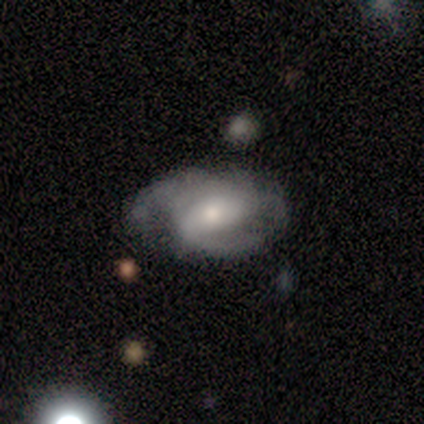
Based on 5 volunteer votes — Volunteers were most divided on "merging" (2-way tie): none: 40%, major disturbance: 40%, minor disturbance: 20%, merger: 0%. More confident: smooth or featured — featured or disk (100%); edge-on disk — no (100%); spiral arms — yes (100%); spiral arm count — 2 (80%); spiral winding — medium (60%); bulge size — small (60%); bar — weak (60%).